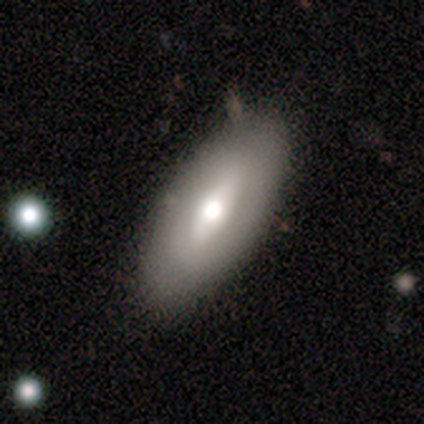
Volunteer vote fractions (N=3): Smooth or featured? featured or disk (67%)
Edge-on disk? yes (50%, tied with no)
Edge-on bulge? rounded (100%)
Merging? none (100%)